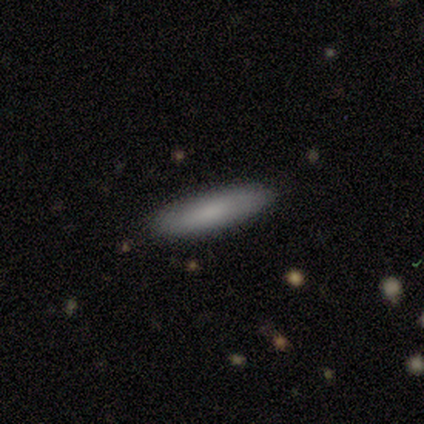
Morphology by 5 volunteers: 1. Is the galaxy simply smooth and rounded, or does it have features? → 100% smooth, 0% featured or disk, 0% star or artifact.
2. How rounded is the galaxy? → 80% cigar-shaped, 20% in between, 0% round.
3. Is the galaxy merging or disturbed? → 100% none, 0% minor disturbance, 0% major disturbance, 0% merger.